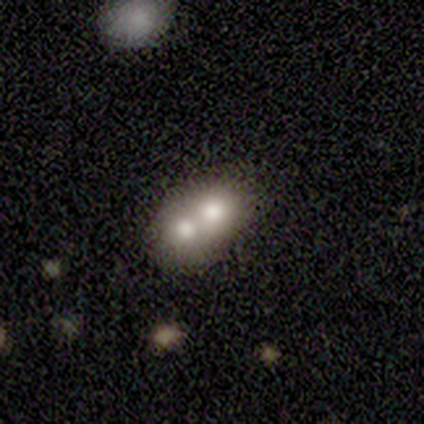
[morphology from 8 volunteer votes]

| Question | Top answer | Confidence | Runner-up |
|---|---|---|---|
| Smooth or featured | smooth | 75% | featured or disk (25%) |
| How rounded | round | 50% | tied: in between (50%) |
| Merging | merger | 88% | none (12%) |